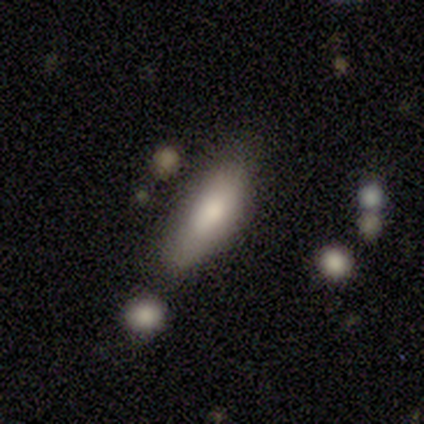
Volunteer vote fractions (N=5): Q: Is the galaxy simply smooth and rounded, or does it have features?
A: smooth — 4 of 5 (80%).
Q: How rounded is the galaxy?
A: in between — 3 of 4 (75%).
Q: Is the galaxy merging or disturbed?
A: none — 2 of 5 (40%, tied with minor disturbance).